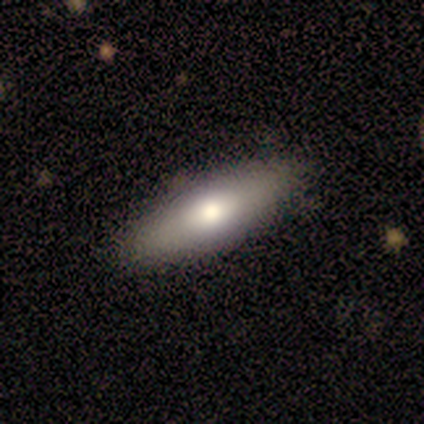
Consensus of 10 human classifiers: smooth-or-featured: smooth: 60% | featured or disk: 40% | star or artifact: 0%
  how-rounded: in between: 67% | cigar-shaped: 33% | round: 0%
  merging: none: 100% | minor disturbance: 0% | major disturbance: 0% | merger: 0%